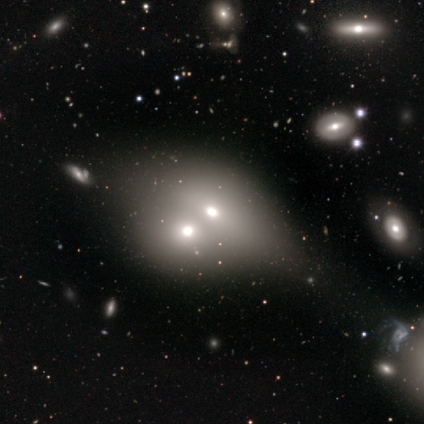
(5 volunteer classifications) Smooth or featured? featured or disk (80%)
Edge-on disk? yes (50%, tied with no)
Edge-on bulge? boxy (50%, tied with rounded)
Merging? merger (100%)